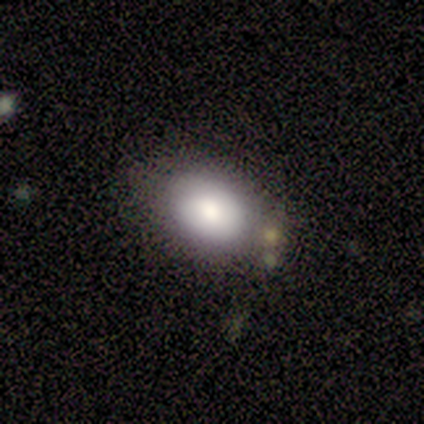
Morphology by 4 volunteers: Q: Smooth or featured?
A: smooth (100%)
Q: How rounded?
A: in between (75%); runner-up: round (25%)
Q: Merging?
A: none (100%)